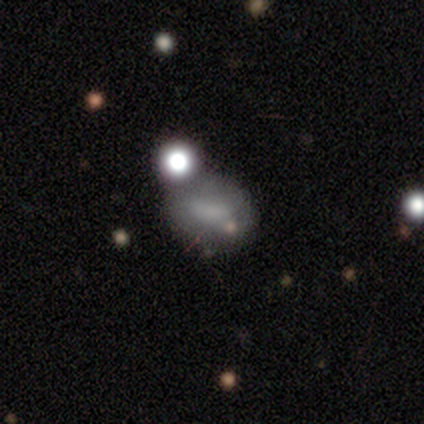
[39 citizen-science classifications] Smooth or featured?
  - smooth: 62% *
  - featured or disk: 23%
  - star or artifact: 15%
How rounded?
  - in between: 67% *
  - round: 29%
  - cigar-shaped: 4%
Merging?
  - none: 39% *
  - merger: 24%
  - minor disturbance: 15%
  - major disturbance: 3%